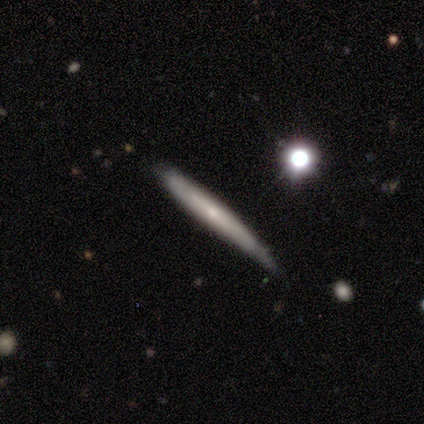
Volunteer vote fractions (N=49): A featured or disk galaxy (55%) viewed edge-on (96%) with no central bulge (73%). Merging: none (69%).